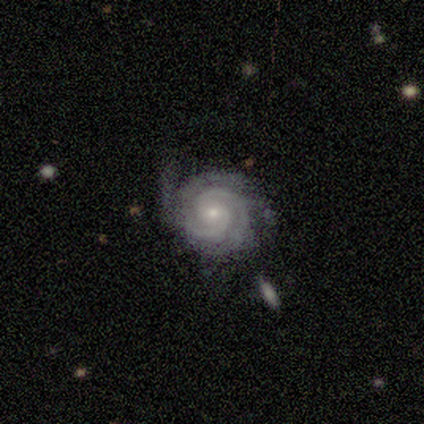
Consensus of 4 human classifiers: smooth-or-featured: featured or disk: 100% | smooth: 0% | star or artifact: 0%
  disk-edge-on: no: 100% | yes: 0%
    bar: no: 75% | strong: 25% | weak: 0%
    has-spiral-arms: yes: 100% | no: 0%
      spiral-winding: tight: 75% | medium: 25% | loose: 0%
      spiral-arm-count: 3: 50% (tied) | can't tell: 50% (tied) | 1: 0% | 2: 0% | 4: 0% | more than 4: 0%
    bulge-size: small: 100% | dominant: 0% | large: 0% | moderate: 0% | none: 0%
  merging: none: 50% (tied) | minor disturbance: 50% (tied) | major disturbance: 0% | merger: 0%